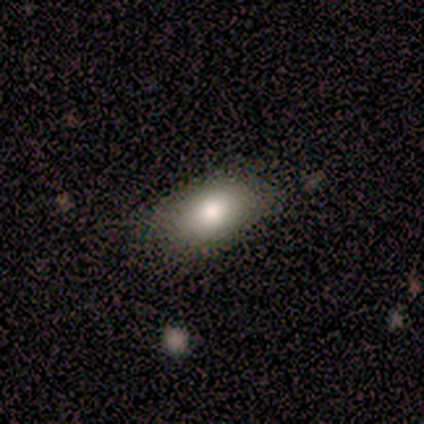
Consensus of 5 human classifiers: This is likely a smooth galaxy (60%). How rounded: clearly in between (100%). Merging: clearly none (100%).